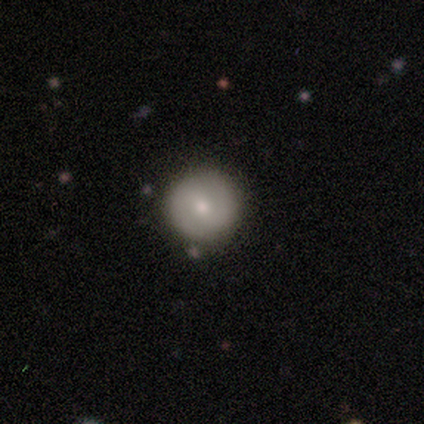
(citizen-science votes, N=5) This appears to be a smooth galaxy with no disk features (60%) that is round (100%). Merging: none (100%).